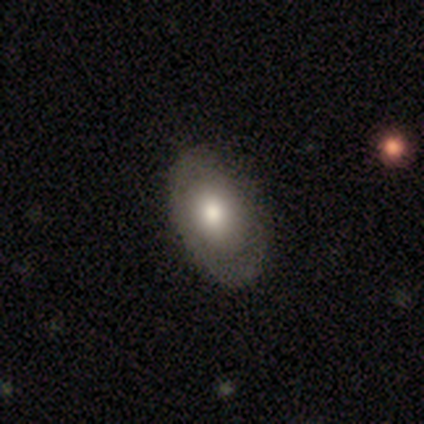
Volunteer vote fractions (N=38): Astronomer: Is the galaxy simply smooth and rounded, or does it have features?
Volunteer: smooth — 66%.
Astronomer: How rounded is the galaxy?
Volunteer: in between — 84%.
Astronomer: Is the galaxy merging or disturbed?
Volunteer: none — 54%.